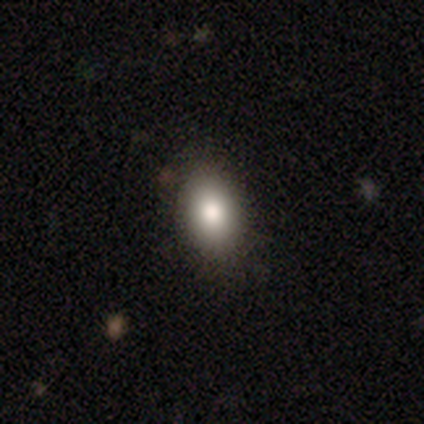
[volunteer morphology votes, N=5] Consensus on every question: smooth or featured — smooth (100%); how rounded — in between (100%); merging — none (100%).